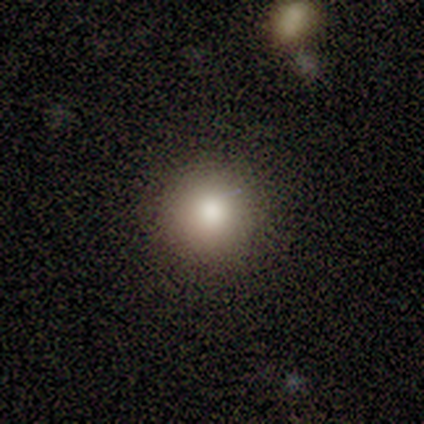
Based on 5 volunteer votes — Smooth or featured? 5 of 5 (100%) said smooth. How rounded? 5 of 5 (100%) said round. Merging? 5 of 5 (100%) said none.